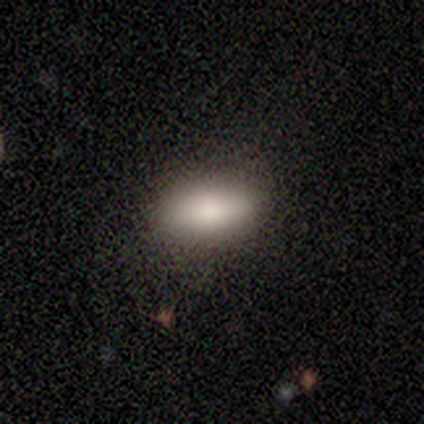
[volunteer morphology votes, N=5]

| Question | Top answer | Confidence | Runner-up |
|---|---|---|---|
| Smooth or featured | smooth | 100% | — |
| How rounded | in between | 100% | — |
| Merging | none | 80% | minor disturbance (20%) |